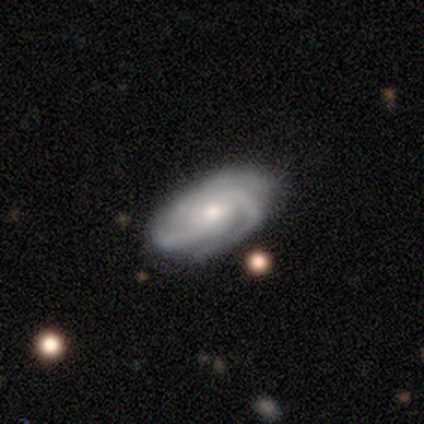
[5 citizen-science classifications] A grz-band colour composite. It shows a featured or disk galaxy (100%) with no bar (80%), 3 (60%) tight (60%) spiral arms (100%) and a small central bulge (80%). Merging: none (100%).